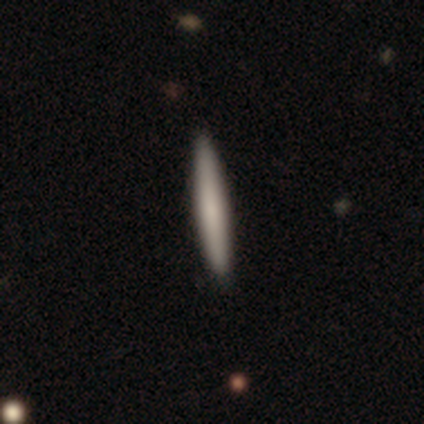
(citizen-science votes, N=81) Smooth or featured? smooth (75%)
How rounded? cigar-shaped (98%)
Merging? none (46%)